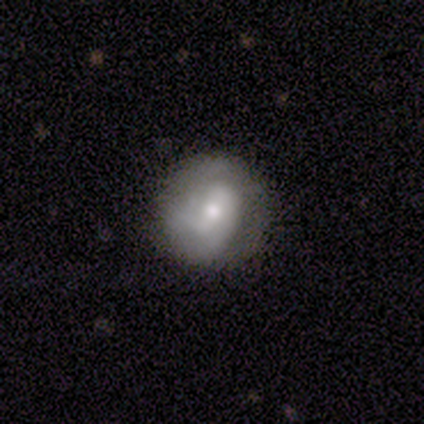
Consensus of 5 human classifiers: Overall: smooth (40%, tied with featured or disk). How rounded: round (100%). Merging: none (75%).